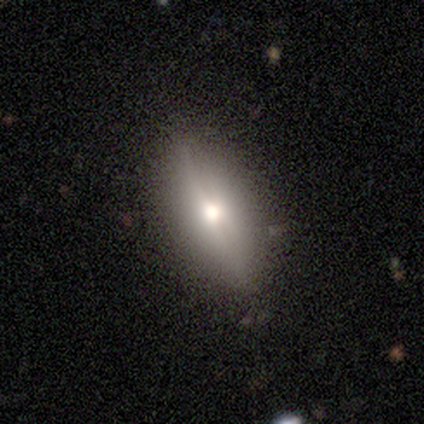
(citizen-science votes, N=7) smooth-or-featured: featured or disk: 57% | smooth: 29% | star or artifact: 14%
  disk-edge-on: yes: 75% | no: 25%
    edge-on-bulge: rounded: 100% | boxy: 0% | none: 0%
  merging: none: 83% | minor disturbance: 17% | major disturbance: 0% | merger: 0%